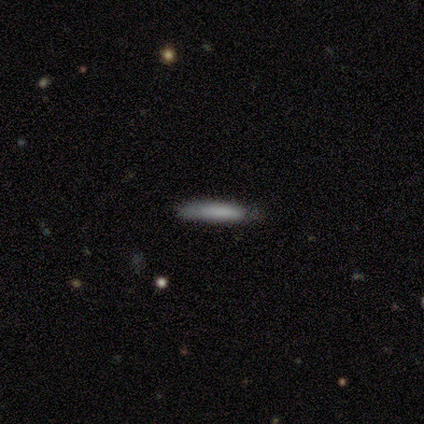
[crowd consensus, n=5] This appears to be a smooth galaxy with no disk features (80%) that is cigar-shaped (100%). Merging: none (80%).